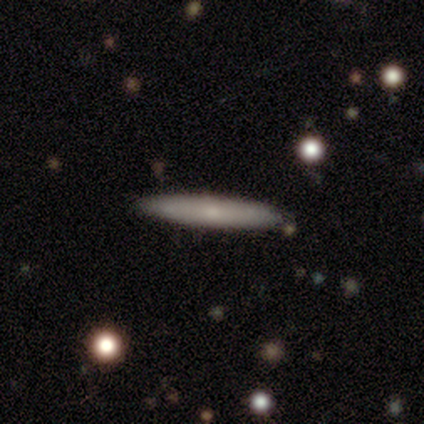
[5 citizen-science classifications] Smooth or featured?
  - smooth: 40% * (tied)
  - featured or disk: 40% * (tied)
  - star or artifact: 20%
How rounded?
  - cigar-shaped: 100% *
  - round: 0%
  - in between: 0%
Merging?
  - none: 50% *
  - minor disturbance: 25%
  - merger: 25%
  - major disturbance: 0%